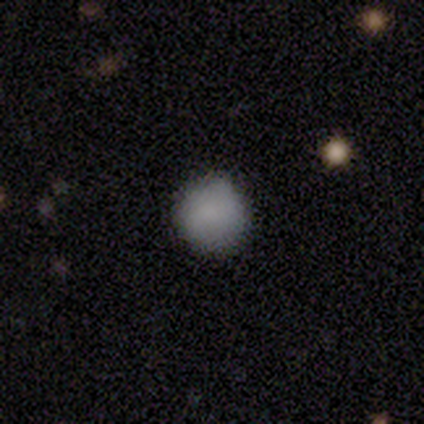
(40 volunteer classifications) Q: Smooth or featured?
A: smooth (90%); runner-up: featured or disk (8%)
Q: How rounded?
A: round (92%); runner-up: in between (8%)
Q: Merging?
A: none (85%); runner-up: minor disturbance (13%)